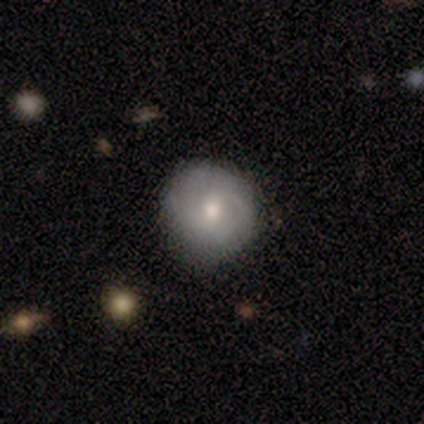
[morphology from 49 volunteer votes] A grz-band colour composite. It shows a featured or disk galaxy (55%) with a weak bar (58%), 2 (56%) medium (62%) spiral arms (62%) and a moderate central bulge (81%). Merging: none (83%).